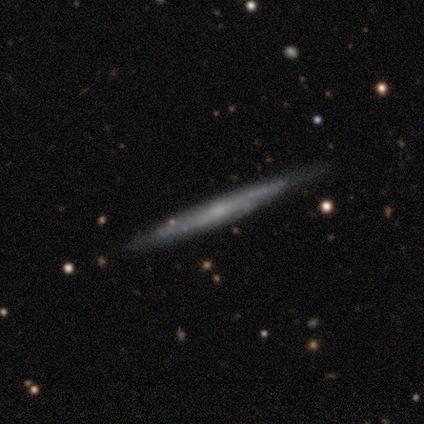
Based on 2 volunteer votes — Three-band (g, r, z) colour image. It shows a smooth galaxy with no disk features (50%, tied with featured or disk) that is round (100%). Merging: none (100%).